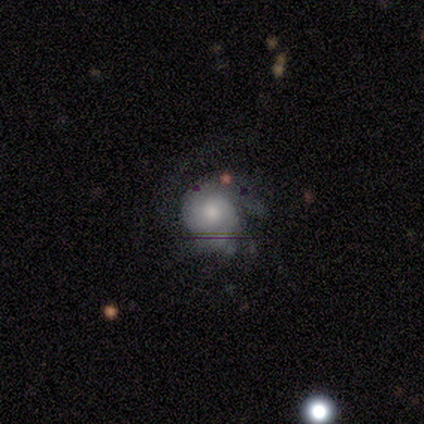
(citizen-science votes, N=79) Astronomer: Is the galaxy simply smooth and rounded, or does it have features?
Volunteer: featured or disk — 56% (runner-up: smooth, 33%).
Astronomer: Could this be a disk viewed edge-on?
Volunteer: no — 98%.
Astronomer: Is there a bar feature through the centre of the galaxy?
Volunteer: no — 79%.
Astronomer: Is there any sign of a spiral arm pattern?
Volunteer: yes — 88%.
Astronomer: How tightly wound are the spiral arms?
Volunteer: tight — 45% (runner-up: medium, 42%).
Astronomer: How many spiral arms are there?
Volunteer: can't tell — 55%.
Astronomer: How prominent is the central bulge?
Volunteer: moderate — 49% (runner-up: small, 35%).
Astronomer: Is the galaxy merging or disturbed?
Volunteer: none — 24% (runner-up: minor disturbance, 21%).